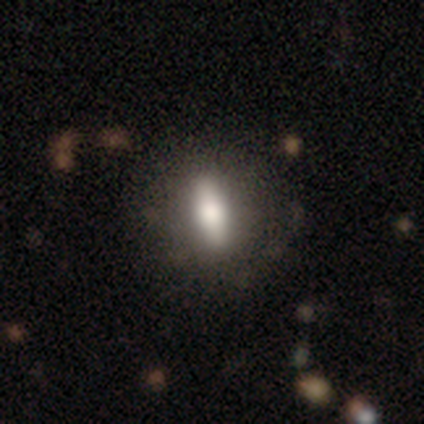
Overall: smooth (60%; featured or disk 40%). How rounded: cigar-shaped (67%; in between 33%). Merging: none (60%; minor disturbance 40%).